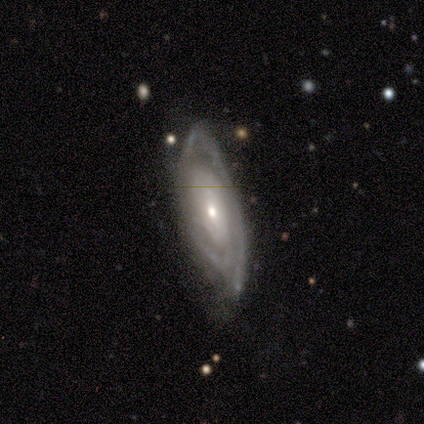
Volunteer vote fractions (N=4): Morphology: type=featured or disk (75%); edge-on=no (100%); bar=no (100%); spiral arms=yes (100%); winding=tight (100%); arm count=1 (33%, tied with 4 and can't tell); bulge=small (67%); merging=none (50%).